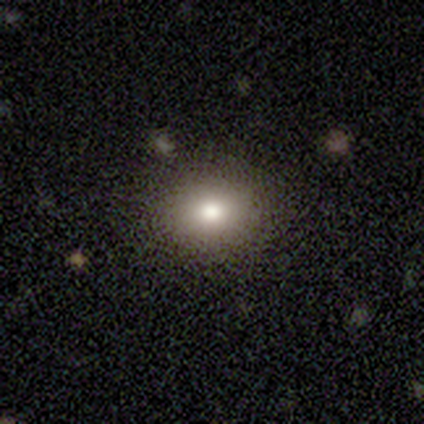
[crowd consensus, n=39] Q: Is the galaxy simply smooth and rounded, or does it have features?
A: smooth — 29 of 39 (74%).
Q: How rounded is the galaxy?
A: round — 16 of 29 (55%).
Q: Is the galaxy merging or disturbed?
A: none — 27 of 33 (82%).